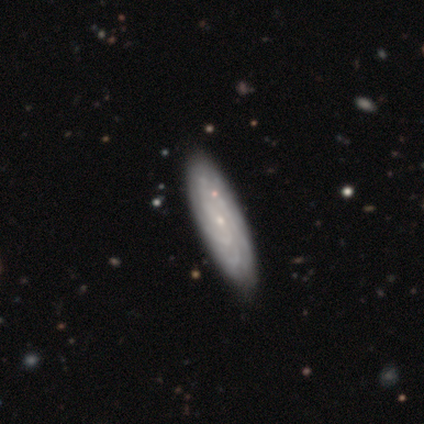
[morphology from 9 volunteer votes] Smooth or featured: featured or disk — 78% (smooth — 22%)
Edge-on disk: no — 86% (yes — 14%)
Bar: no — 67% (weak — 33%)
Spiral arms: yes — 100%
Spiral winding: tight — 83% (medium — 17%)
Spiral arm count: more than 4 — 33% (tied with can't tell — 33%)
Bulge size: small — 83% (large — 17%)
Merging: none — 100%